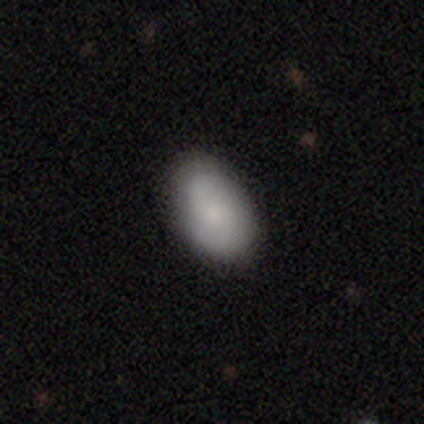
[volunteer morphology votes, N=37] This appears to be a smooth galaxy with no disk features (73%) that is in between round and cigar-shaped (96%). Merging: none (69%).